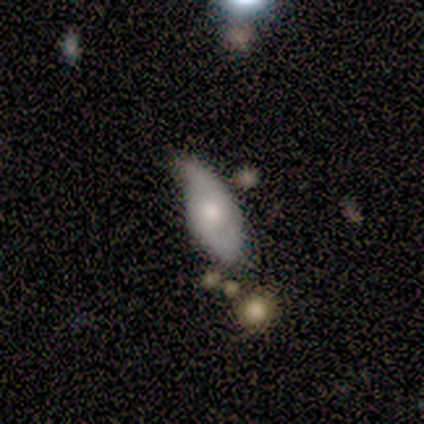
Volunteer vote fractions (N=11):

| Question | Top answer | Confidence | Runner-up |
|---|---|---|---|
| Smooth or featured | smooth | 45% | tied: featured or disk (45%) |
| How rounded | in between | 100% | — |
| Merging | none | 40% | minor disturbance (30%) |